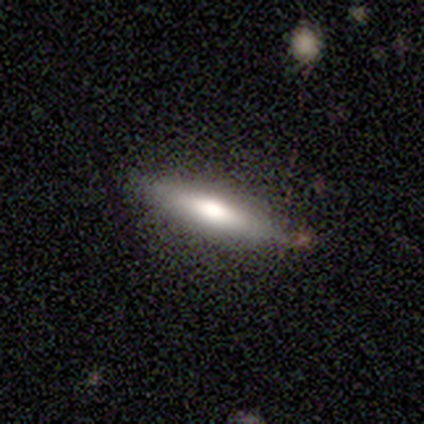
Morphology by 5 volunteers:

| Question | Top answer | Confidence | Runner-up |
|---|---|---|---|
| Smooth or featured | smooth | 80% | featured or disk (20%) |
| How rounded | cigar-shaped | 75% | in between (25%) |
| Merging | none | 100% | — |